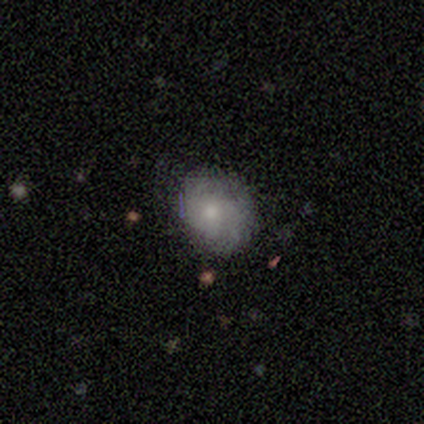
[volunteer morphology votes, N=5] A smooth galaxy with no disk features (80%) that is round (75%).

Vote fractions:
- Smooth or featured? smooth: 80% / featured or disk: 20% / star or artifact: 0%
- How rounded? round: 75% / in between: 25% / cigar-shaped: 0%
- Merging? none: 80% / major disturbance: 20% / minor disturbance: 0% / merger: 0%